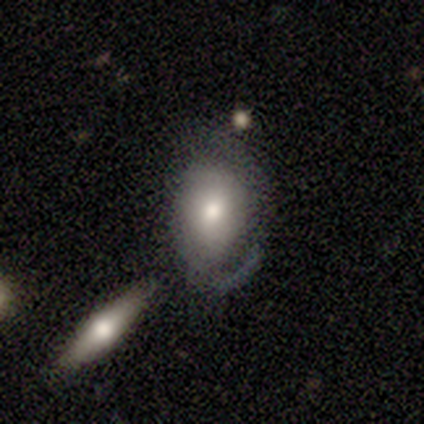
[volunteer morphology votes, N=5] Smooth or featured?
  - smooth: 80% *
  - featured or disk: 20%
  - star or artifact: 0%
How rounded?
  - in between: 75% *
  - round: 25%
  - cigar-shaped: 0%
Merging?
  - none: 100% *
  - minor disturbance: 0%
  - major disturbance: 0%
  - merger: 0%